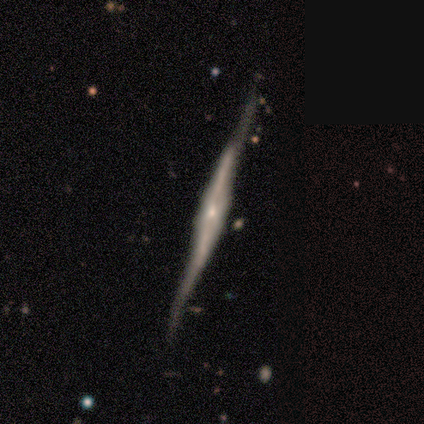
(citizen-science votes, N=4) This appears to be a featured or disk galaxy (100%) viewed edge-on (100%) with a boxy central bulge (75%). Merging: none (100%).